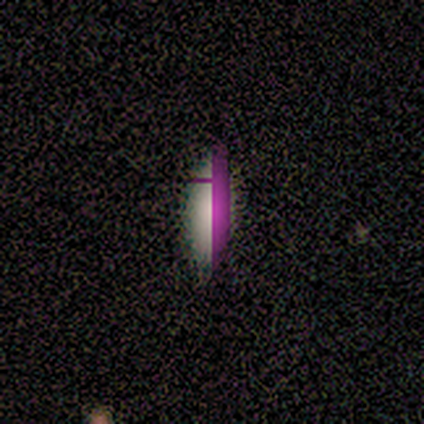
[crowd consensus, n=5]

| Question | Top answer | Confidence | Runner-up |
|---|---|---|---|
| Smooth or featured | star or artifact | 80% | smooth (20%) |